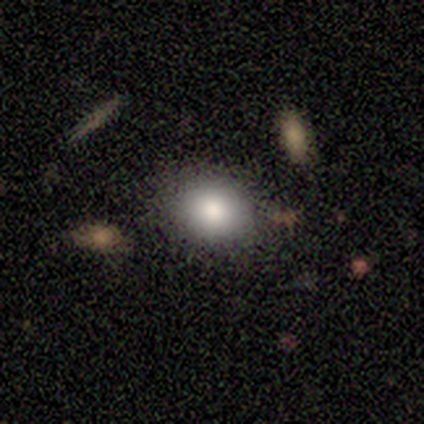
Smooth or featured? 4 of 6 (67%) said smooth. How rounded? 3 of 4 (75%) said round. Merging? 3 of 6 (50%, tied with minor disturbance) said none.